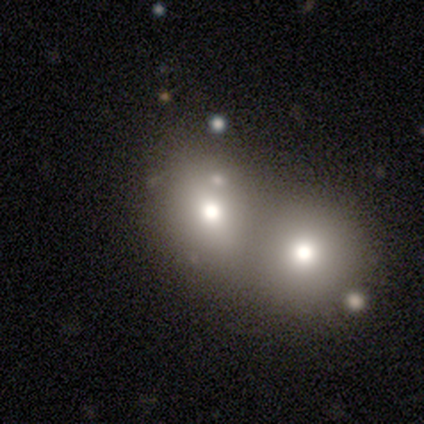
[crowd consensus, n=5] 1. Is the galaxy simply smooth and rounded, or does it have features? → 80% smooth, 20% star or artifact, 0% featured or disk.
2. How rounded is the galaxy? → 75% in between, 25% round, 0% cigar-shaped.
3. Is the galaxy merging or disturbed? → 100% merger, 0% none, 0% minor disturbance, 0% major disturbance.